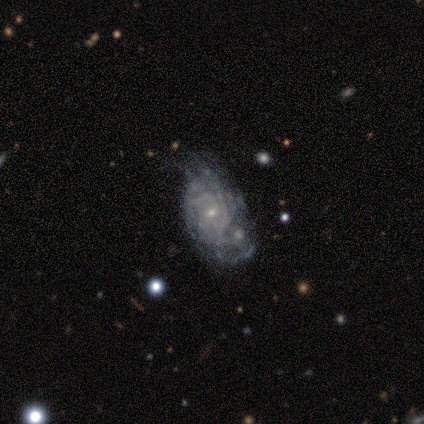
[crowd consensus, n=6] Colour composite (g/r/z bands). It shows a featured or disk galaxy (83%) with no bar (100%), tight (80%) spiral arms (100%) and a small central bulge (80%). Merging: none (33%, tied with major disturbance).